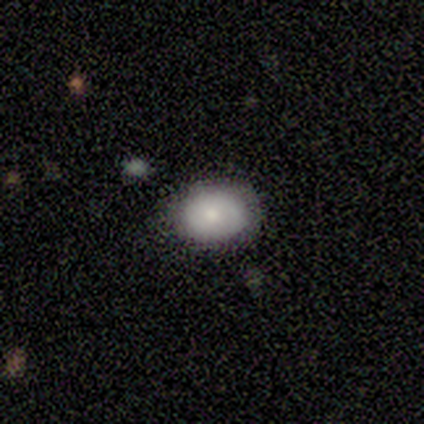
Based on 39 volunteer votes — Volunteers were most divided on "how rounded": in between: 64%, round: 36%, cigar-shaped: 0%. More confident: merging — none (81%); smooth or featured — smooth (56%).